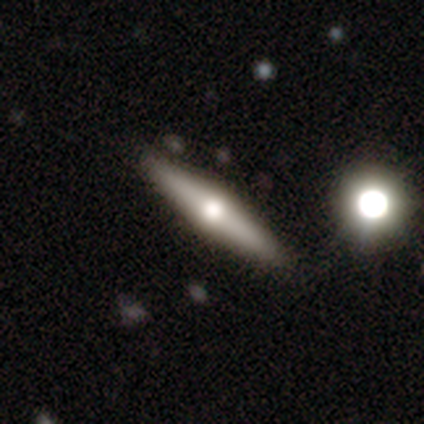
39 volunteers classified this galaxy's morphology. Smooth or featured? featured or disk (56%)
Edge-on disk? yes (100%)
Edge-on bulge? rounded (91%)
Merging? none (89%)